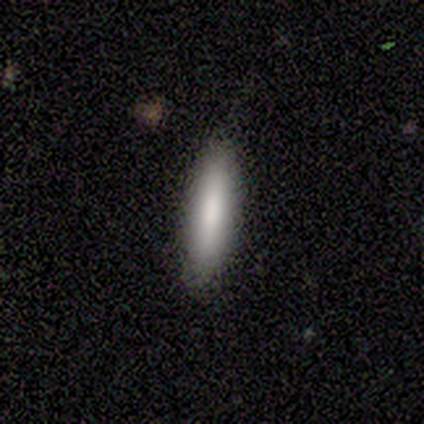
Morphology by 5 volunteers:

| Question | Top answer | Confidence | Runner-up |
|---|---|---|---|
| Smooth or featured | smooth | 100% | — |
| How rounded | cigar-shaped | 100% | — |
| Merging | none | 100% | — |